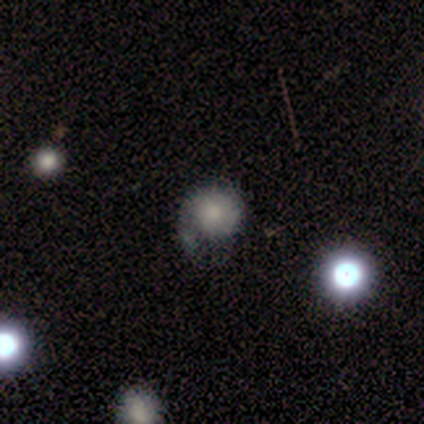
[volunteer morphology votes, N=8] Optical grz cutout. It shows a smooth galaxy with no disk features (62%) that is round (100%). Merging: minor disturbance (50%).